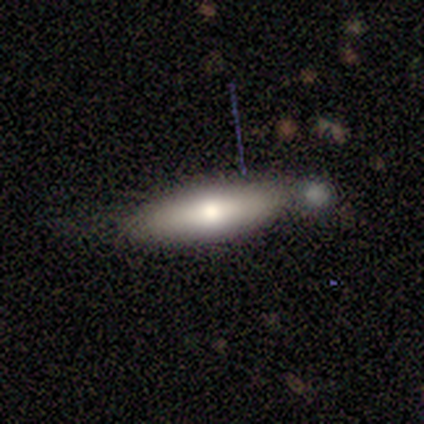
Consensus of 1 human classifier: smooth_or_featured: smooth (p=1.00)
how_rounded: in between (p=1.00)
merging: none (p=1.00)